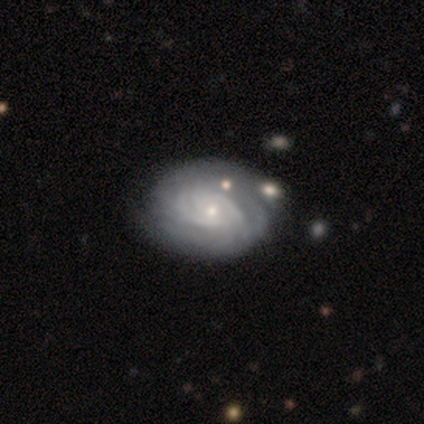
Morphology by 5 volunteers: Q: Smooth or featured?
A: featured or disk (80%); runner-up: star or artifact (20%)
Q: Edge-on disk?
A: no (100%)
Q: Bar?
A: no (75%); runner-up: strong (25%)
Q: Spiral arms?
A: yes (100%)
Q: Spiral winding?
A: tight (75%); runner-up: medium (25%)
Q: Spiral arm count?
A: can't tell (50%); runner-up: 2 (25%)
Q: Bulge size?
A: moderate (50%); tied with: small (50%)
Q: Merging?
A: none (75%); runner-up: minor disturbance (25%)